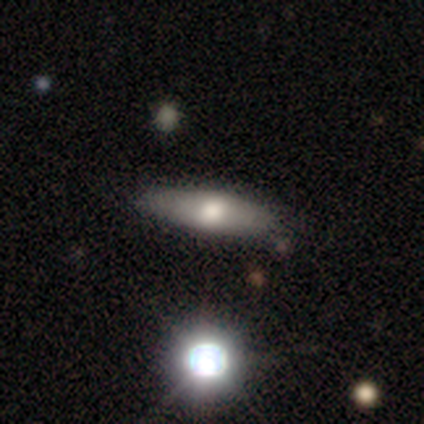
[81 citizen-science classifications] smooth_or_featured: smooth (p=0.52) [alt: featured or disk p=0.40]
how_rounded: cigar-shaped (p=0.64) [alt: in between p=0.33]
merging: none (p=0.81) [alt: minor disturbance p=0.16]